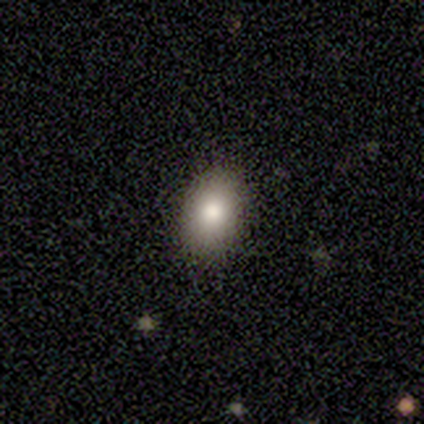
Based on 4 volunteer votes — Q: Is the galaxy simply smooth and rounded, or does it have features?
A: smooth — 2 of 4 (50%, tied with star or artifact).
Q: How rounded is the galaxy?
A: in between — 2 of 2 (100%).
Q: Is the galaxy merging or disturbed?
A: none — 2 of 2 (100%).